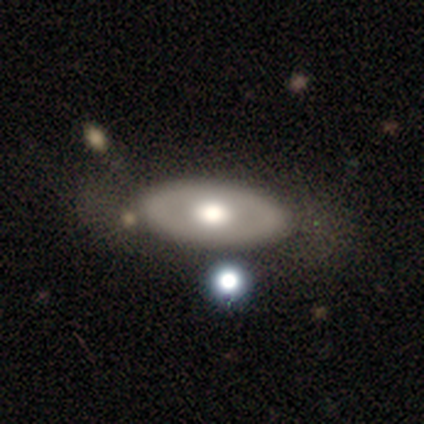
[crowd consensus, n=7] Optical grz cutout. It shows a smooth galaxy with no disk features (86%) that is in between round and cigar-shaped (83%). Merging: none (100%).